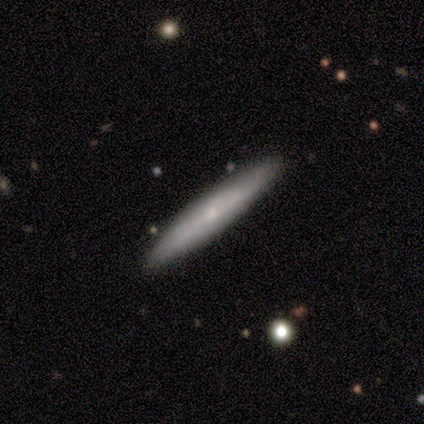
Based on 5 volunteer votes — Smooth or featured: featured or disk — 60% (smooth — 40%)
Edge-on disk: yes — 67% (no — 33%)
Edge-on bulge: rounded — 100%
Merging: none — 80% (minor disturbance — 20%)